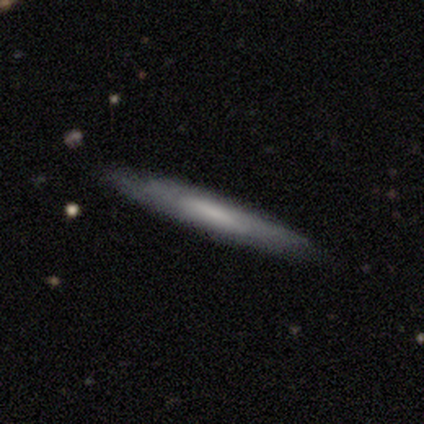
Morphology: type=smooth (88%); roundness=cigar-shaped (71%); merging=none (88%).